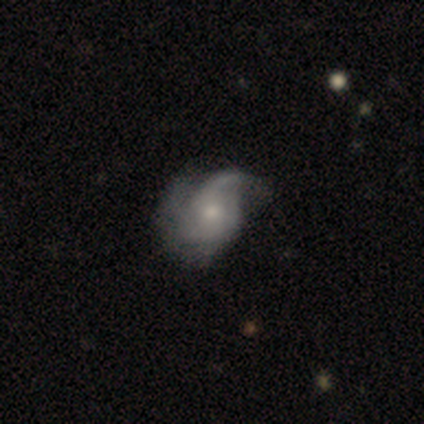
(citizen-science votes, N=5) Smooth or featured? 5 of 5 (100%) said featured or disk. Edge-on disk? 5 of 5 (100%) said no. Bar? 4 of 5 (80%) said no. Spiral arms? 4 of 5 (80%) said yes. Spiral winding? 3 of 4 (75%) said tight. Spiral arm count? 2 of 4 (50%) said 1. Bulge size? 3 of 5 (60%) said moderate. Merging? 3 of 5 (60%) said none.